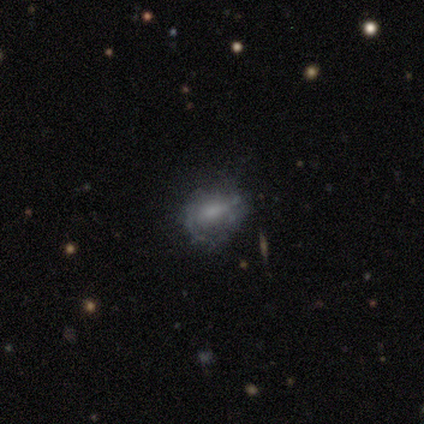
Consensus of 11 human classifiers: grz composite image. It shows a smooth galaxy with no disk features (64%) that is in between round and cigar-shaped (86%). Merging: none (36%, tied with minor disturbance).